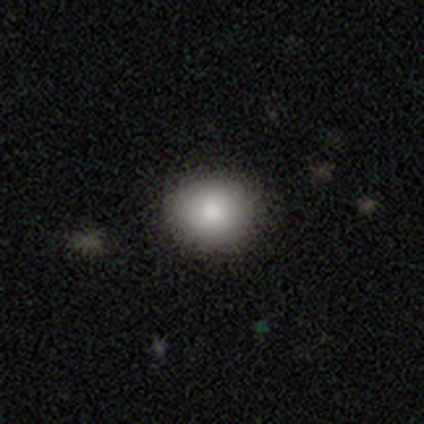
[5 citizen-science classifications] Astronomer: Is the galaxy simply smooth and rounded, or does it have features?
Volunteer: smooth — 80%.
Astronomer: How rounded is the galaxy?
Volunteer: round — 100%.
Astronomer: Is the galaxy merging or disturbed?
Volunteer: none — 100%.